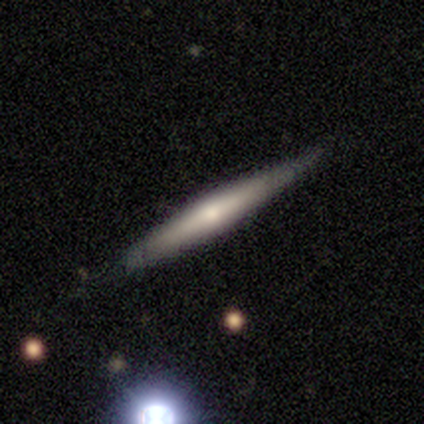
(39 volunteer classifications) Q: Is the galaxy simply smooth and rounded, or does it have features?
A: featured or disk — 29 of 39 (74%).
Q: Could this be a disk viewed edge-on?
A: yes — 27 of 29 (93%).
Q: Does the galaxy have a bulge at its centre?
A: rounded — 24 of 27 (89%).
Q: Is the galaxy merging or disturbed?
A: none — 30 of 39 (77%).